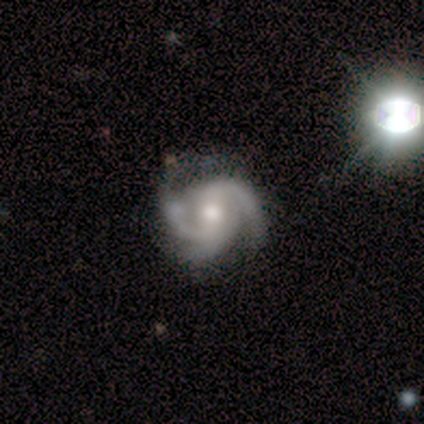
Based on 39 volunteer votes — This appears to be a featured or disk galaxy (85%) with a weak bar (45%), 3 (70%) medium (48%) spiral arms (100%) and a moderate central bulge (73%). Merging: none (60%).